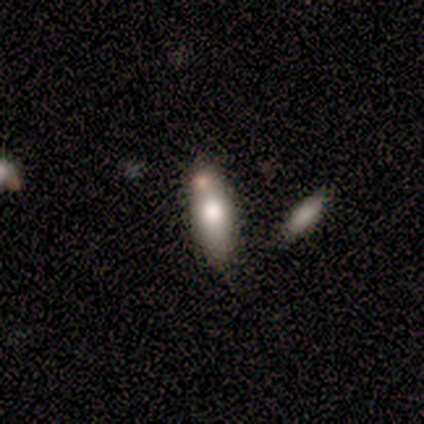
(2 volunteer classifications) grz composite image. It shows a smooth galaxy with no disk features (50%, tied with featured or disk) that is in between round and cigar-shaped (100%). Merging: minor disturbance (50%, tied with merger).